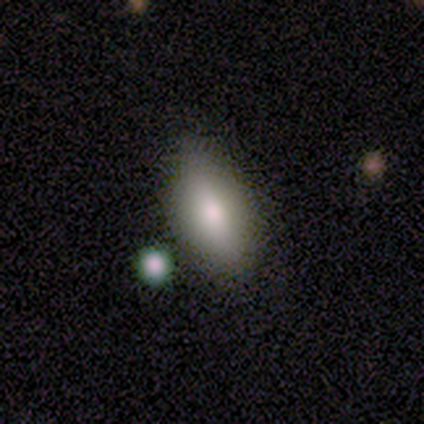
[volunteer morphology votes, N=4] smooth-or-featured: smooth: 50% (tied) | featured or disk: 50% (tied) | star or artifact: 0%
  how-rounded: in between: 100% | round: 0% | cigar-shaped: 0%
  merging: none: 75% | merger: 25% | minor disturbance: 0% | major disturbance: 0%